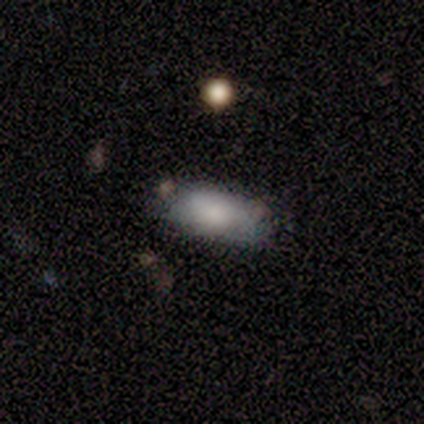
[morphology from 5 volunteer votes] Overall: smooth (80%). How rounded: in between (75%). Merging: none (80%).